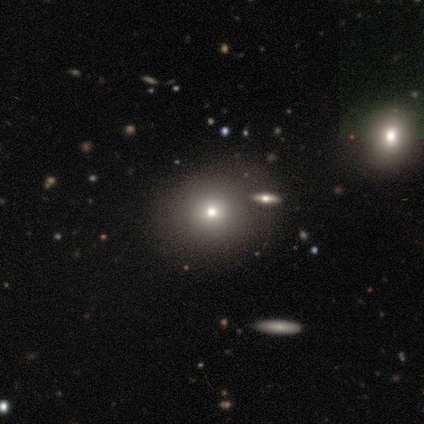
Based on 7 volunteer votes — Volunteers were most divided on "merging": none: 71%, major disturbance: 14%, merger: 14%, minor disturbance: 0%. More confident: smooth or featured — smooth (86%); how rounded — round (83%).